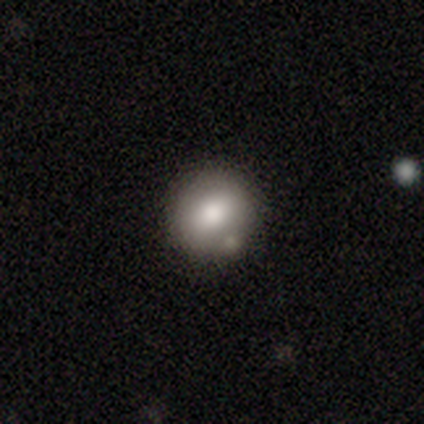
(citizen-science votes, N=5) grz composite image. It shows a smooth galaxy with no disk features (100%) that is round (100%). Merging: none (60%).